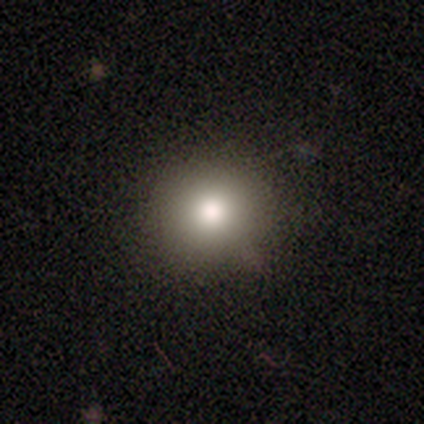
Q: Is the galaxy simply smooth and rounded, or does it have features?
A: smooth — 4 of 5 (80%).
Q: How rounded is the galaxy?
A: round — 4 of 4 (100%).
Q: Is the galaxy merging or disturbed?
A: none — 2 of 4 (50%, tied with minor disturbance).